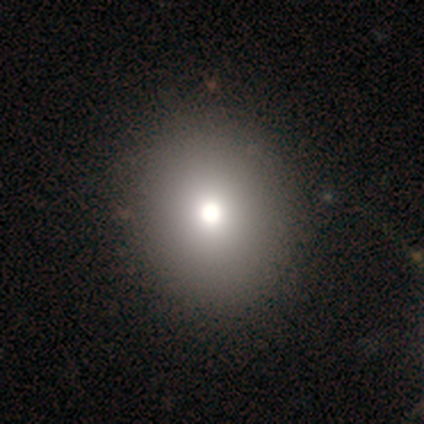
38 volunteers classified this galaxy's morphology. Volunteers were most divided on "how rounded": round: 73%, in between: 27%, cigar-shaped: 0%. More confident: smooth or featured — smooth (79%); merging — none (67%).